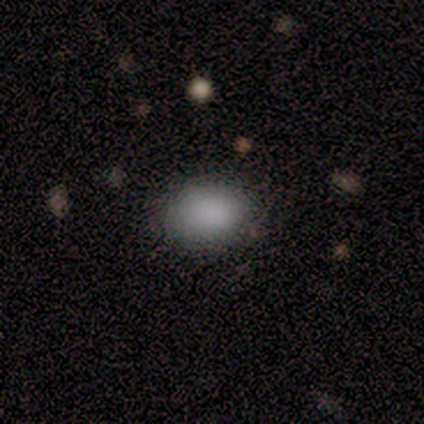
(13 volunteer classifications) smooth_or_featured: smooth (p=0.92) [alt: star or artifact p=0.08]
how_rounded: round (p=0.50) [tied with: in between p=0.50]
merging: none (p=0.92) [alt: major disturbance p=0.08]